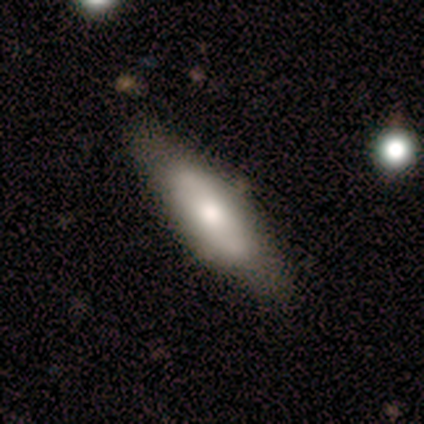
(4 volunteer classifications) smooth-or-featured: smooth: 50% (tied) | featured or disk: 50% (tied) | star or artifact: 0%
  how-rounded: in between: 50% (tied) | cigar-shaped: 50% (tied) | round: 0%
  merging: none: 75% | minor disturbance: 25% | major disturbance: 0% | merger: 0%